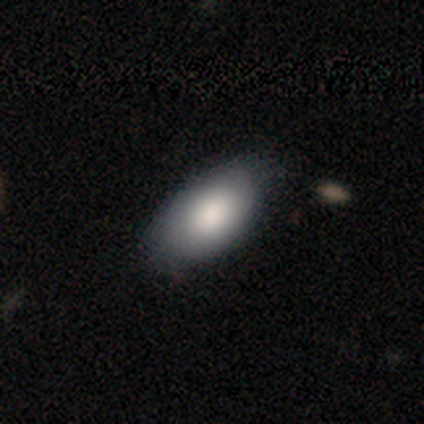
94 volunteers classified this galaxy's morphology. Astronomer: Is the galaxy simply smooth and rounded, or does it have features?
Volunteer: smooth — 76%.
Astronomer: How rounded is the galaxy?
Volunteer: in between — 92%.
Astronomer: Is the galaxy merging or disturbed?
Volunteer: none — 69%.